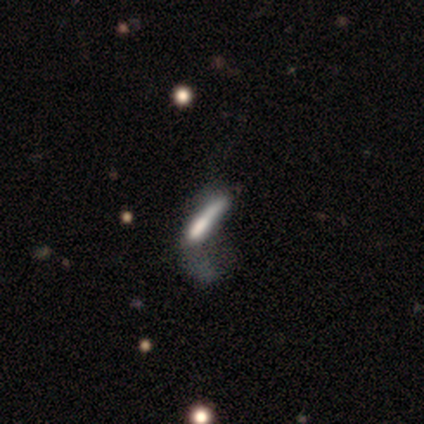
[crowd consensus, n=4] Q: Smooth or featured?
A: featured or disk (50%); runner-up: smooth (25%)
Q: Edge-on disk?
A: yes (50%); tied with: no (50%)
Q: Edge-on bulge?
A: none (100%)
Q: Merging?
A: none (33%); tied with: major disturbance (33%); merger (33%)